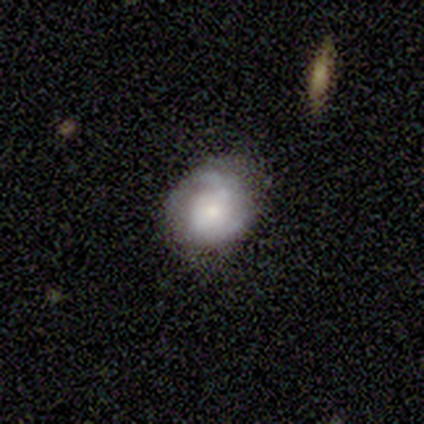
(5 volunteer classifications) Smooth or featured? 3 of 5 (60%) said smooth. How rounded? 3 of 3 (100%) said round. Merging? 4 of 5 (80%) said none.